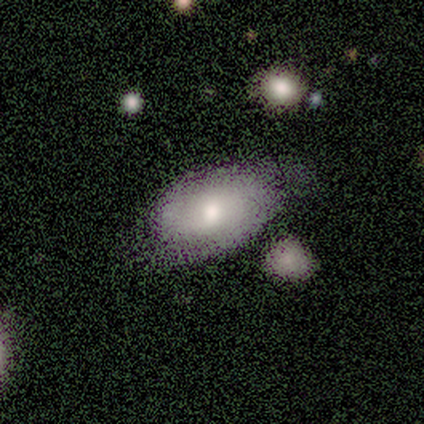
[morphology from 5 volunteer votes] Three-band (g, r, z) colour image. It shows a featured or disk galaxy (60%) with no bar (100%), 2 (100%) tight (50%, tied with loose) spiral arms (67%) and a moderate central bulge (67%). Merging: minor disturbance (67%).